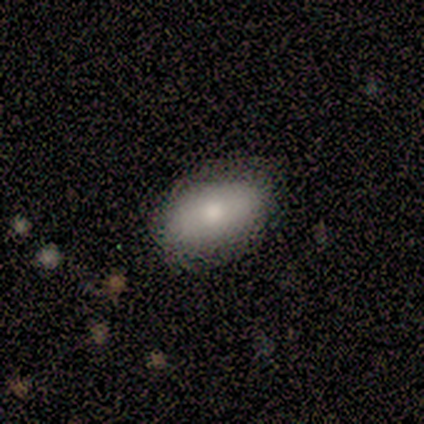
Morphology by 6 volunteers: Overall: smooth (67%; featured or disk 33%). How rounded: in between (100%). Merging: none (83%).